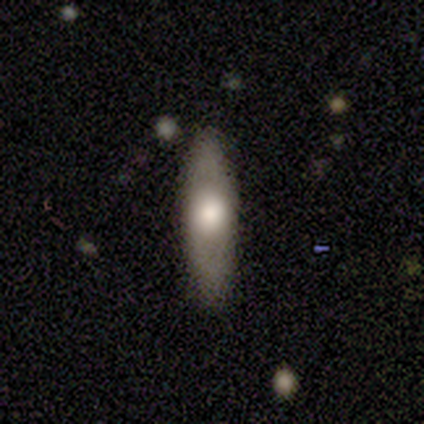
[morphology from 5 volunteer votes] featured or disk 60%, smooth 40%, star or artifact 0%. Down the decision tree: edge-on disk — yes (100%); edge-on bulge — rounded (100%); merging — none (100%).